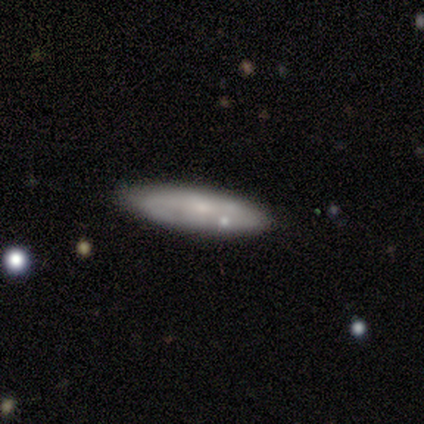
A featured or disk galaxy (80%) with a weak bar (75%), 2 (50%, tied with more than 4) medium (100%) spiral arms (50%, tied with no) and a small central bulge (50%).

Vote fractions:
- Smooth or featured? featured or disk: 80% / smooth: 20% / star or artifact: 0%
- Edge-on disk? no: 100% / yes: 0%
- Bar? weak: 75% / no: 25% / strong: 0%
- Spiral arms? yes: 50% (tied) / no: 50% (tied)
- Spiral winding? medium: 100% / tight: 0% / loose: 0%
- Spiral arm count? 2: 50% (tied) / more than 4: 50% (tied) / 1: 0% / 3: 0% / 4: 0% / can't tell: 0%
- Bulge size? small: 50% / moderate: 25% / none: 25% / dominant: 0% / large: 0%
- Merging? none: 80% / minor disturbance: 20% / major disturbance: 0% / merger: 0%